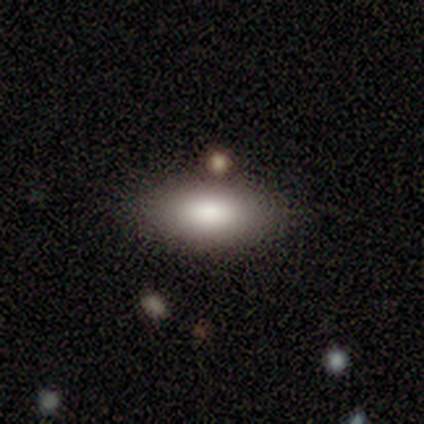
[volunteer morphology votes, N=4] Overall: smooth (75%). How rounded: in between (100%). Merging: none (67%; merger 33%).